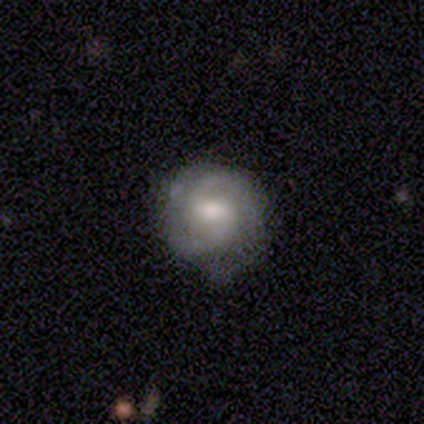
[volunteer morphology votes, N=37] Smooth or featured: featured or disk — 68% (smooth — 30%)
Edge-on disk: no — 100%
Bar: weak — 60% (no — 28%)
Spiral arms: yes — 84% (no — 16%)
Spiral winding: medium — 38% (tight — 33%)
Spiral arm count: 2 — 76% (1 — 10%)
Bulge size: moderate — 56% (small — 24%)
Merging: none — 56% (minor disturbance — 36%)